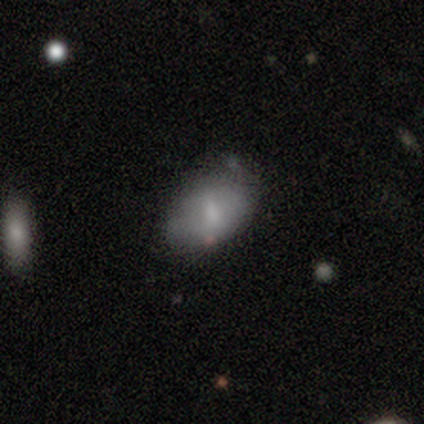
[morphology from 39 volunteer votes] A smooth galaxy with no disk features (59%) that is in between round and cigar-shaped (87%).

Vote fractions:
- Smooth or featured? smooth: 59% / featured or disk: 31% / star or artifact: 10%
- How rounded? in between: 87% / round: 13% / cigar-shaped: 0%
- Merging? none: 54% / minor disturbance: 34% / major disturbance: 9% / merger: 3%